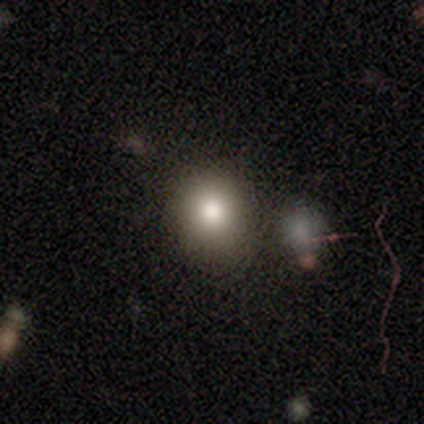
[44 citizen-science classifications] A smooth galaxy with no disk features (77%) that is round (65%). Merging: none (79%).